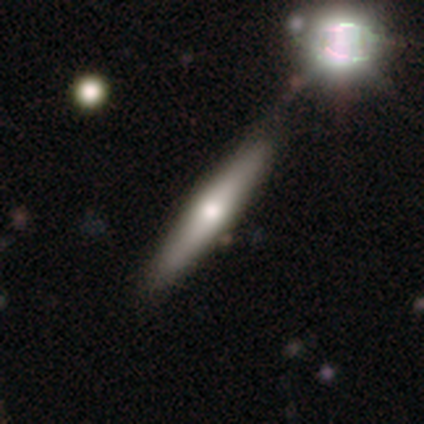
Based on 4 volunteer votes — A smooth galaxy with no disk features (50%, tied with featured or disk) that is cigar-shaped (100%). Merging: none (100%).